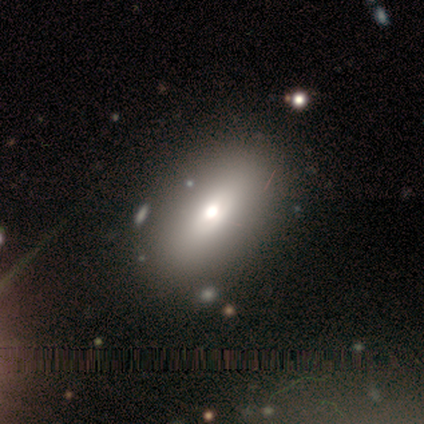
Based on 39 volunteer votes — Smooth or featured?
  - smooth: 72% *
  - featured or disk: 18%
  - star or artifact: 10%
How rounded?
  - in between: 86% *
  - cigar-shaped: 11%
  - round: 4%
Merging?
  - none: 83% *
  - minor disturbance: 11%
  - major disturbance: 3%
  - merger: 3%